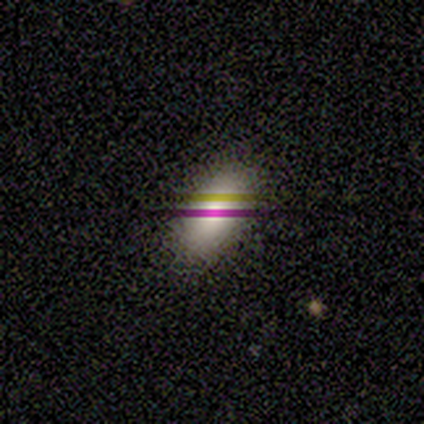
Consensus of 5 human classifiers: Smooth or featured: smooth — 60% (star or artifact — 40%)
How rounded: in between — 67% (cigar-shaped — 33%)
Merging: none — 100%